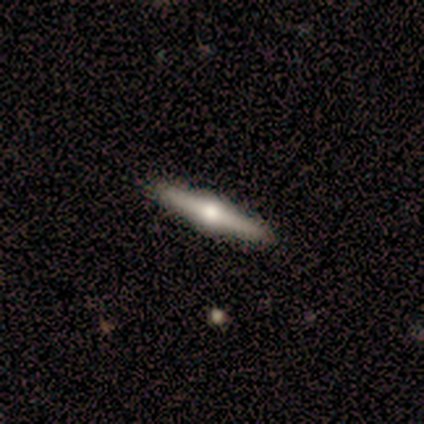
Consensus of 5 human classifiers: This appears to be a featured or disk galaxy (100%) viewed edge-on (100%) with a rounded central bulge (100%). Merging: none (80%).